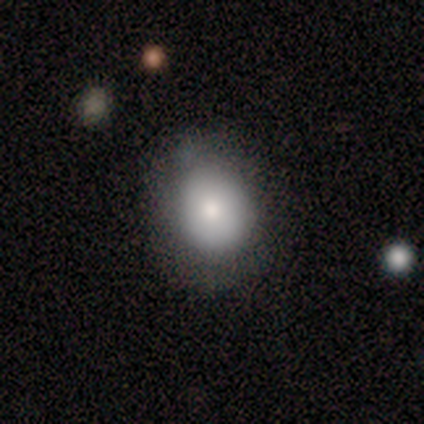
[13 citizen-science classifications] smooth_or_featured: smooth (p=0.77) [alt: featured or disk p=0.23]
how_rounded: round (p=0.50) [tied with: in between p=0.50]
merging: none (p=0.85) [alt: minor disturbance p=0.15]